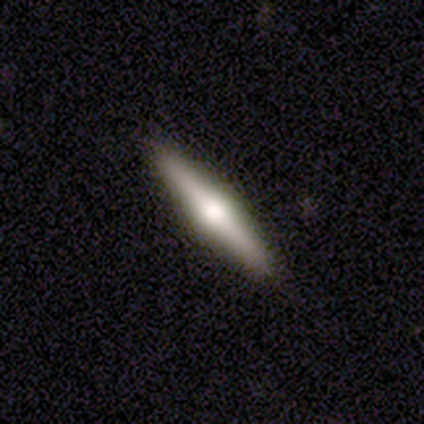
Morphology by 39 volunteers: Overall: featured or disk (64%; smooth 26%). Edge-on disk: yes (96%). Edge-on bulge: rounded (83%). Merging: none (94%).